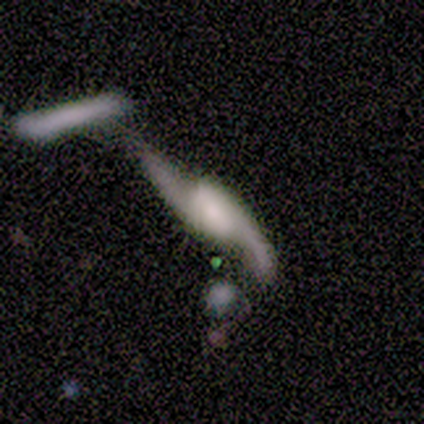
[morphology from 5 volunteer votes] Smooth or featured? featured or disk (100%)
Edge-on disk? no (100%)
Bar? weak (40%, tied with no)
Spiral arms? yes (80%)
Spiral winding? loose (100%)
Spiral arm count? 2 (100%)
Bulge size? small (60%)
Merging? none (60%)